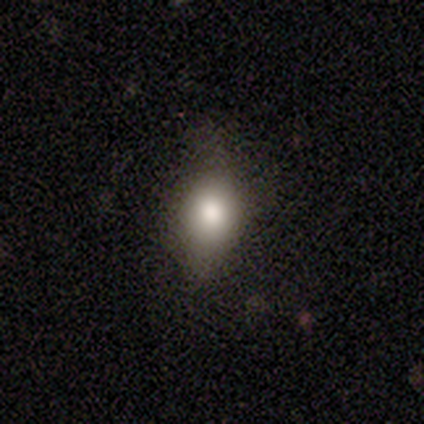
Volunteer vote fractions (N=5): smooth_or_featured: smooth (p=1.00)
how_rounded: in between (p=0.80) [alt: round p=0.20]
merging: minor disturbance (p=0.40) [tied with: major disturbance p=0.40]